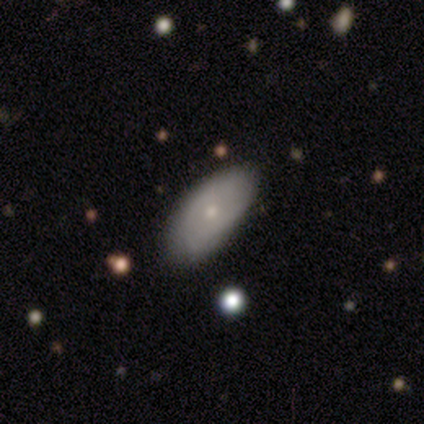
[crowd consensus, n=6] Volunteers were most divided on "spiral arms" (2-way tie): yes: 50%, no: 50%; "spiral arm count" (2-way tie): 2: 50%, can't tell: 50%, 1: 0%, 3: 0%, 4: 0%, more than 4: 0%; "merging" (2-way tie): none: 50%, minor disturbance: 50%, major disturbance: 0%, merger: 0%. More confident: edge-on disk — no (100%); bar — no (100%); spiral winding — tight (100%); bulge size — small (75%); smooth or featured — featured or disk (67%).